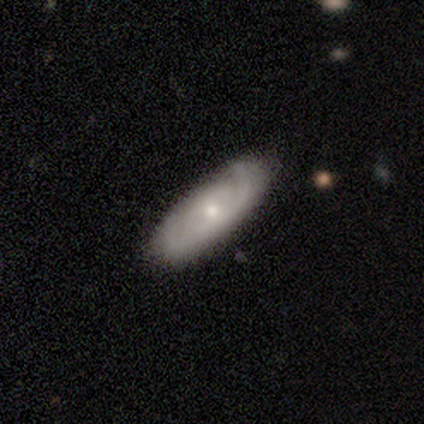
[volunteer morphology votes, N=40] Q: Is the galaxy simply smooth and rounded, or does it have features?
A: featured or disk — 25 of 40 (62%).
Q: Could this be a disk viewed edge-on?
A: no — 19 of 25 (76%).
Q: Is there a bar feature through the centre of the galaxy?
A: no — 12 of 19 (63%).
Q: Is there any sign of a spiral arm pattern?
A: yes — 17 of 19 (89%).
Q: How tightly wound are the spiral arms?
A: tight — 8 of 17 (47%).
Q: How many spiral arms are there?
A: can't tell — 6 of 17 (35%).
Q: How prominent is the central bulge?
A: small — 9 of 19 (47%).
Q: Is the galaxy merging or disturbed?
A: none — 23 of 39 (59%).